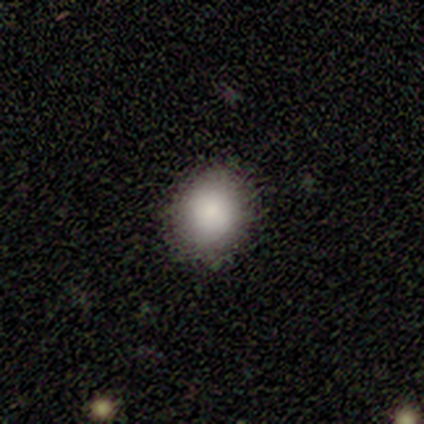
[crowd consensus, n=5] This appears to be a smooth galaxy with no disk features (100%) that is round (60%). Merging: none (100%).